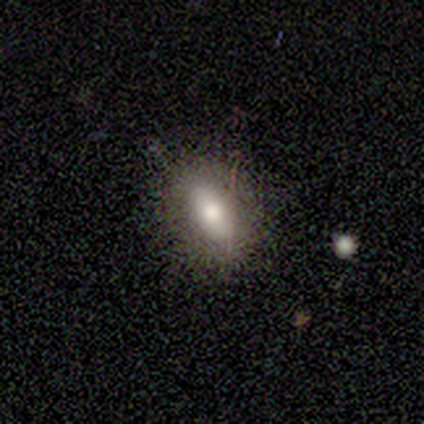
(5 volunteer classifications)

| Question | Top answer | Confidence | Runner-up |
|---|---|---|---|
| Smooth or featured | smooth | 80% | featured or disk (20%) |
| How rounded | in between | 100% | — |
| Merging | none | 60% | minor disturbance (40%) |